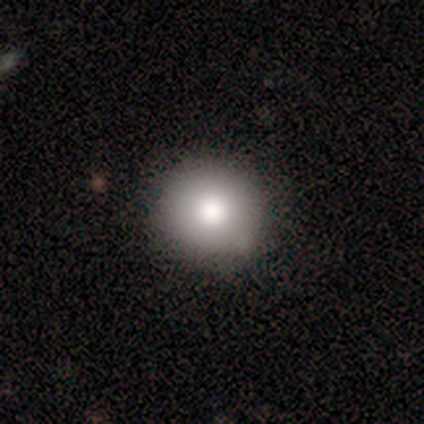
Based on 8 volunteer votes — Volunteers were most divided on "how rounded": round: 88%, in between: 12%, cigar-shaped: 0%. More confident: smooth or featured — smooth (100%); merging — none (100%).